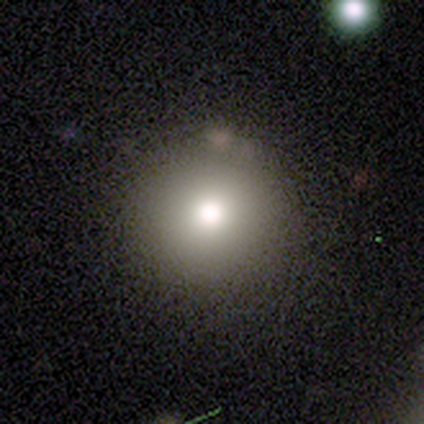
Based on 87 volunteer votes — Morphology: type=smooth (68%); roundness=round (98%); merging=none (88%).